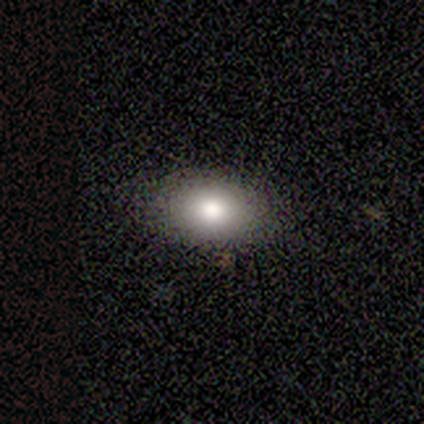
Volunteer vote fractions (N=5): Smooth or featured: smooth — 100%
How rounded: in between — 100%
Merging: none — 80% (minor disturbance — 20%)